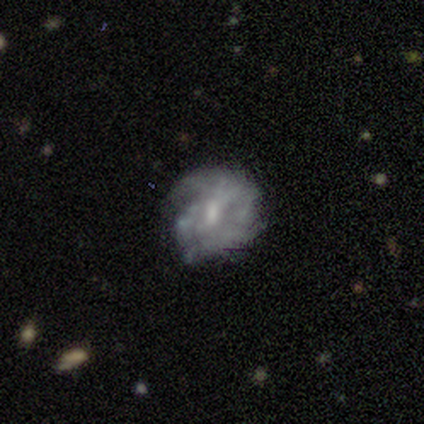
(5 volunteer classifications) This appears to be a featured or disk galaxy (80%) with a weak bar (67%), no spiral arms (67%) and a moderate central bulge (67%). Merging: none (80%).